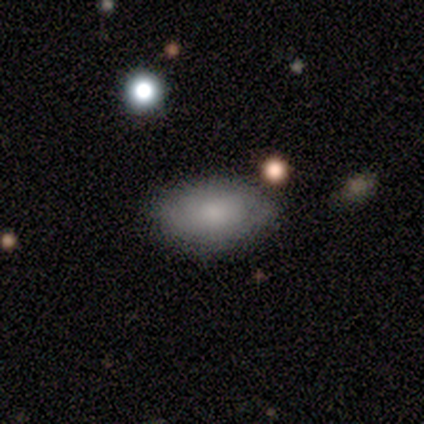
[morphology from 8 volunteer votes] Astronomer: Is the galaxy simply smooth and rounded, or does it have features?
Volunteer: smooth — 75%.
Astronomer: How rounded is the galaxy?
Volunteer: in between — 100%.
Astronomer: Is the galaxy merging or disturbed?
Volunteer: none — 88%.